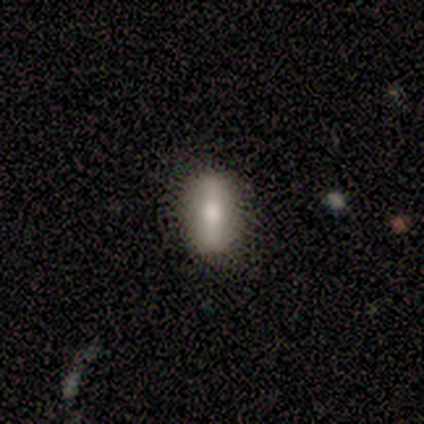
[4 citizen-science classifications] smooth_or_featured: smooth (p=0.50) [tied with: featured or disk p=0.50]
how_rounded: in between (p=1.00)
merging: none (p=0.75) [alt: minor disturbance p=0.25]